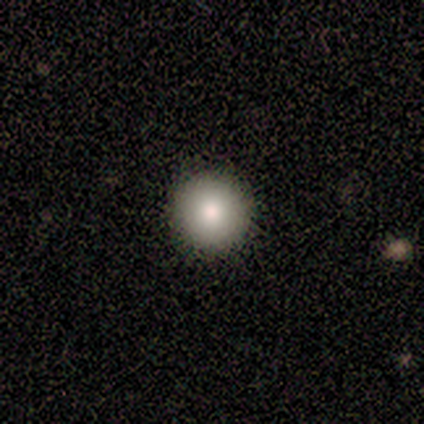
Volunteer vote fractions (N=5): Smooth or featured: smooth — 80% (star or artifact — 20%)
How rounded: round — 100%
Merging: none — 100%